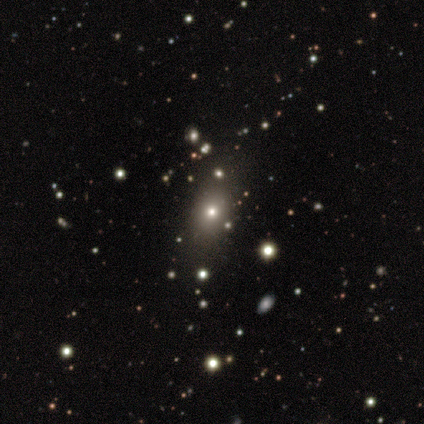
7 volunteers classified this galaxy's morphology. A featured or disk galaxy (57%) with no bar (100%), no spiral arms (100%) and a moderate central bulge (75%).

Vote fractions:
- Smooth or featured? featured or disk: 57% / smooth: 43% / star or artifact: 0%
- Edge-on disk? no: 100% / yes: 0%
- Bar? no: 100% / strong: 0% / weak: 0%
- Spiral arms? no: 100% / yes: 0%
- Bulge size? moderate: 75% / small: 25% / dominant: 0% / large: 0% / none: 0%
- Merging? none: 71% / minor disturbance: 14% / merger: 14% / major disturbance: 0%